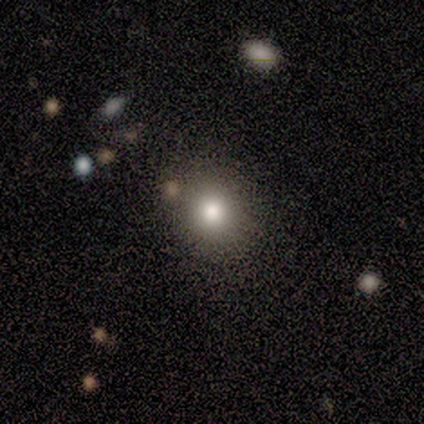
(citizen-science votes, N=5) Q: Smooth or featured?
A: smooth (100%)
Q: How rounded?
A: round (60%); runner-up: in between (40%)
Q: Merging?
A: none (80%); runner-up: minor disturbance (20%)